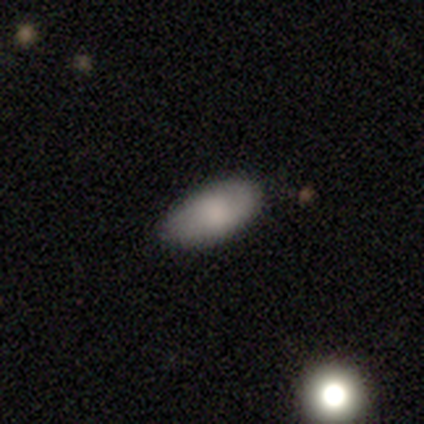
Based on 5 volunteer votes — smooth-or-featured: smooth: 100% | featured or disk: 0% | star or artifact: 0%
  how-rounded: in between: 100% | round: 0% | cigar-shaped: 0%
  merging: none: 80% | minor disturbance: 20% | major disturbance: 0% | merger: 0%